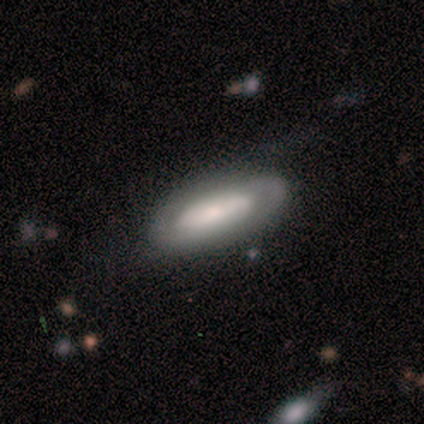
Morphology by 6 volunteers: Smooth or featured? featured or disk (83%)
Edge-on disk? no (80%)
Bar? weak (50%)
Spiral arms? yes (75%)
Spiral winding? tight (33%, tied with medium and loose)
Spiral arm count? 2 (67%)
Bulge size? small (50%)
Merging? none (50%)